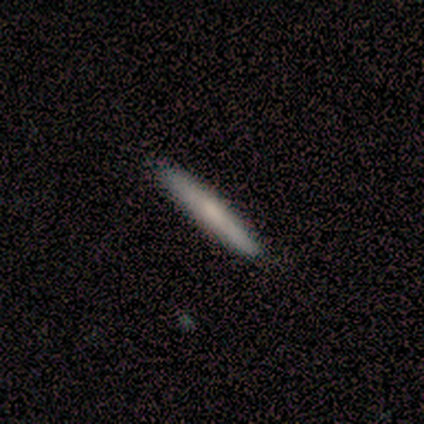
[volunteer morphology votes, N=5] Volunteers were most divided on "smooth or featured": smooth: 60%, featured or disk: 40%, star or artifact: 0%. More confident: how rounded — cigar-shaped (100%); merging — none (80%).